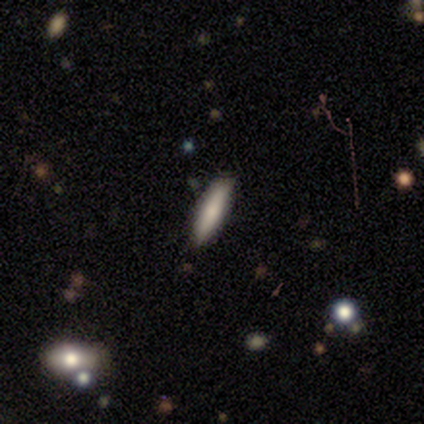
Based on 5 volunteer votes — Smooth or featured? 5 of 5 (100%) said smooth. How rounded? 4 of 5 (80%) said cigar-shaped. Merging? 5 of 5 (100%) said none.